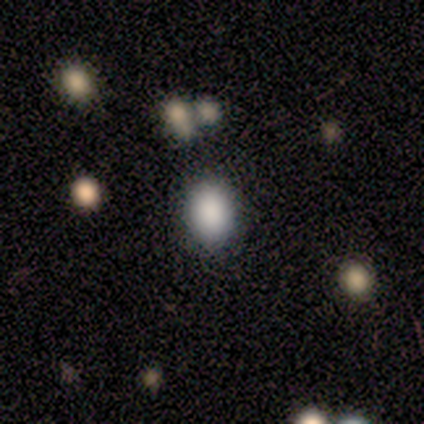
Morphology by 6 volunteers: smooth_or_featured: smooth (p=1.00)
how_rounded: in between (p=0.67) [alt: round p=0.33]
merging: none (p=1.00)